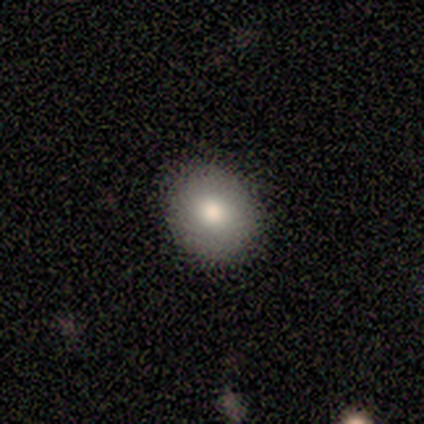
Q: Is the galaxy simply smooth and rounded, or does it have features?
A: smooth — 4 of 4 (100%).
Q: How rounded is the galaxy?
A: round — 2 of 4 (50%, tied with in between).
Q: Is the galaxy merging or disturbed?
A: none — 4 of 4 (100%).